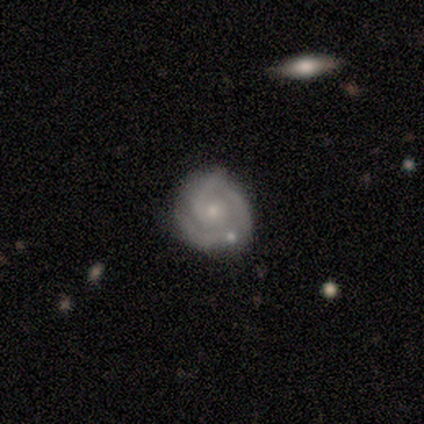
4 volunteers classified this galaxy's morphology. This appears to be a featured or disk galaxy (100%) with no bar (75%), 1 (50%) tight (75%) spiral arms (100%) and a small central bulge (75%). Merging: minor disturbance (50%).